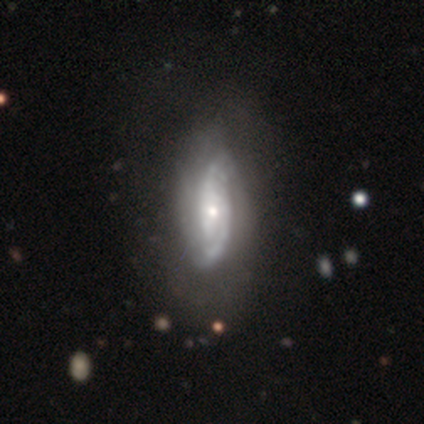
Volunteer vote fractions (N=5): Smooth or featured: featured or disk — 80% (smooth — 20%)
Edge-on disk: yes — 50% (tied with no — 50%)
Edge-on bulge: rounded — 100%
Merging: none — 60% (major disturbance — 40%)